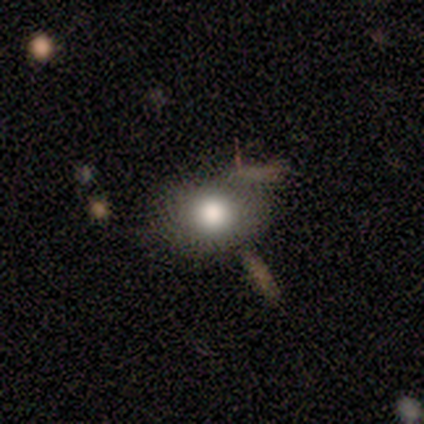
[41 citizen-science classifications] smooth 93%, featured or disk 5%, star or artifact 2%. Down the decision tree: how rounded — in between (55%); merging — none (57%).